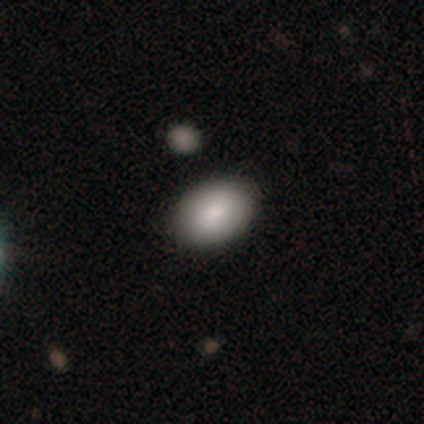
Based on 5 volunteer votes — Volunteers were most divided on "merging" (2-way tie): none: 50%, minor disturbance: 50%, major disturbance: 0%, merger: 0%. More confident: how rounded — in between (100%); smooth or featured — smooth (60%).